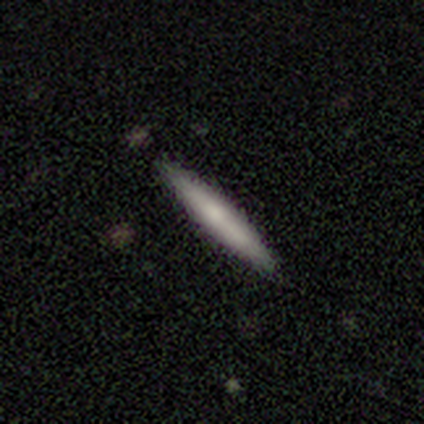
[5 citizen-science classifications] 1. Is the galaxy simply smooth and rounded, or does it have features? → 100% smooth, 0% featured or disk, 0% star or artifact.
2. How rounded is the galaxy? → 100% cigar-shaped, 0% round, 0% in between.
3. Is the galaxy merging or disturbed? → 100% none, 0% minor disturbance, 0% major disturbance, 0% merger.